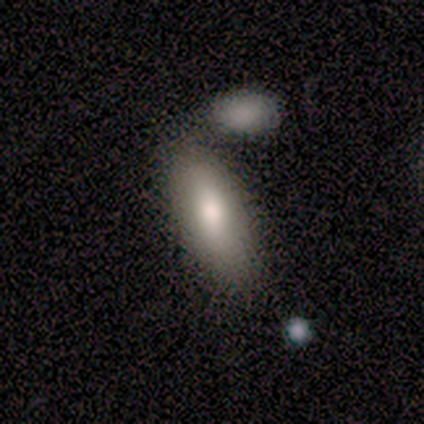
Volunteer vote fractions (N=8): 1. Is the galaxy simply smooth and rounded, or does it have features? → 100% smooth, 0% featured or disk, 0% star or artifact.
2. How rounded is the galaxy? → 88% in between, 12% cigar-shaped, 0% round.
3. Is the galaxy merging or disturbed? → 50% none (tied), 50% merger (tied), 0% minor disturbance, 0% major disturbance.